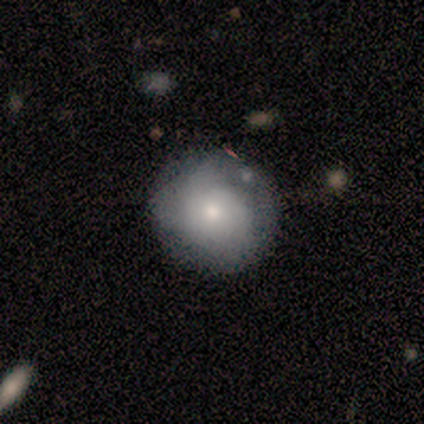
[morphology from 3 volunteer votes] Smooth or featured? smooth (100%)
How rounded? round (67%)
Merging? minor disturbance (67%)